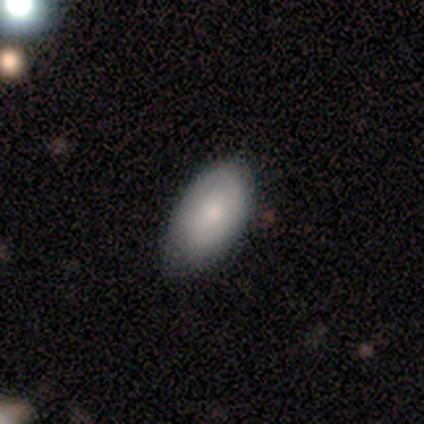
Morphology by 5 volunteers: A smooth galaxy with no disk features (80%) that is in between round and cigar-shaped (100%). Merging: none (80%).